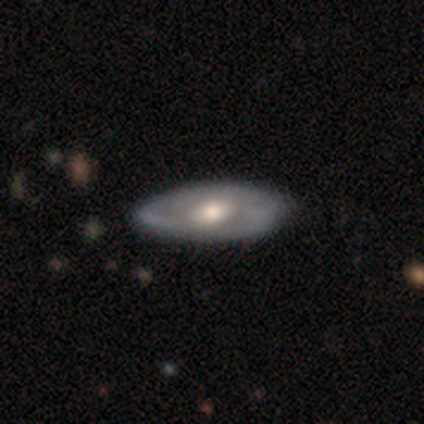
Smooth or featured? 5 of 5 (100%) said featured or disk. Edge-on disk? 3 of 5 (60%) said no. Bar? 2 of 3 (67%) said weak. Spiral arms? 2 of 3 (67%) said yes. Spiral winding? 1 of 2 (50%, tied with medium) said tight. Spiral arm count? 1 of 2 (50%, tied with can't tell) said 2. Bulge size? 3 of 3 (100%) said moderate. Merging? 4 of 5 (80%) said none.